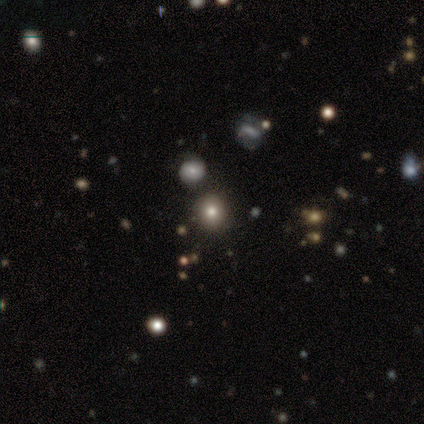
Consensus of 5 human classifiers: Morphology: type=smooth (60%); roundness=round (100%); merging=none (100%).